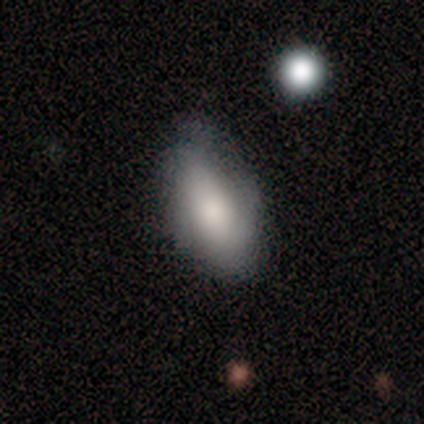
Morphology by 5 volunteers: Smooth or featured?
  - smooth: 60% *
  - featured or disk: 40%
  - star or artifact: 0%
How rounded?
  - in between: 100% *
  - round: 0%
  - cigar-shaped: 0%
Merging?
  - none: 60% *
  - minor disturbance: 20%
  - major disturbance: 20%
  - merger: 0%